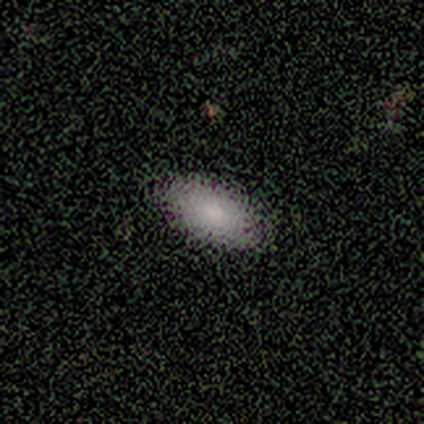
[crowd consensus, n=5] This appears to be a smooth galaxy with no disk features (60%) that is in between round and cigar-shaped (100%). Merging: none (60%).